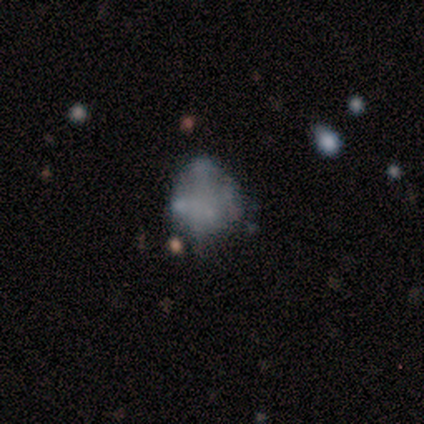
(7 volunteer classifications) Smooth or featured? smooth (43%, tied with featured or disk)
How rounded? round (67%)
Merging? minor disturbance (50%)